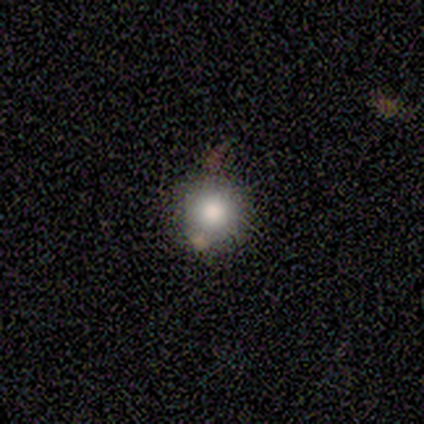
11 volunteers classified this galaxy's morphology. smooth_or_featured: smooth (p=0.82) [alt: featured or disk p=0.18]
how_rounded: round (p=1.00)
merging: none (p=0.55) [alt: minor disturbance p=0.36]